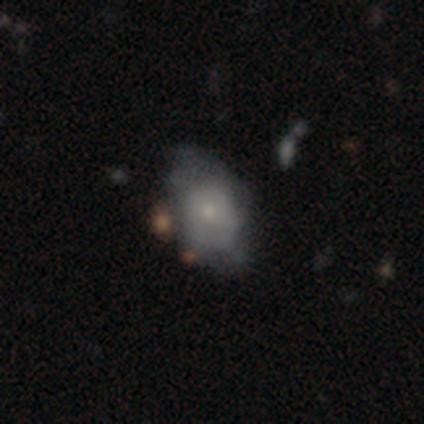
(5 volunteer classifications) Smooth or featured? smooth (60%)
How rounded? in between (67%)
Merging? none (80%)